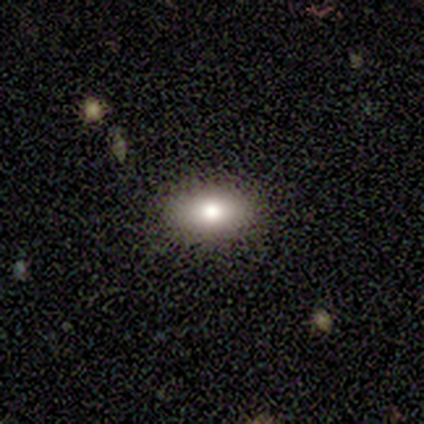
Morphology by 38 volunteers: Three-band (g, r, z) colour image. It shows a smooth galaxy with no disk features (68%) that is in between round and cigar-shaped (85%). Merging: none (94%).